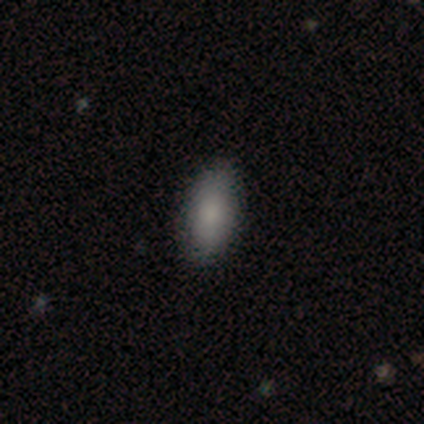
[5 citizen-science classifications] A smooth galaxy with no disk features (80%) that is in between round and cigar-shaped (100%).

Vote fractions:
- Smooth or featured? smooth: 80% / featured or disk: 20% / star or artifact: 0%
- How rounded? in between: 100% / round: 0% / cigar-shaped: 0%
- Merging? none: 100% / minor disturbance: 0% / major disturbance: 0% / merger: 0%